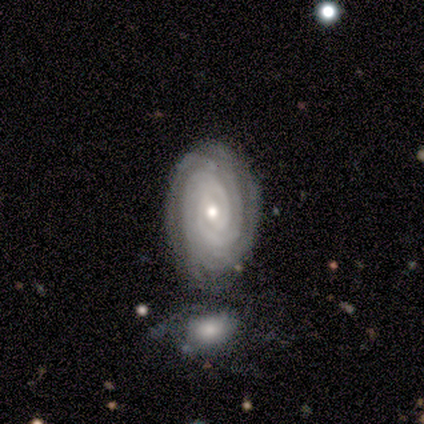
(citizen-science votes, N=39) featured or disk 92%, smooth 5%, star or artifact 3%. Down the decision tree: edge-on disk — no (100%); bar — no (61%); spiral arms — yes (100%); spiral arm count — can't tell (28%); spiral winding — tight (89%); bulge size — moderate (56%); merging — none (68%).